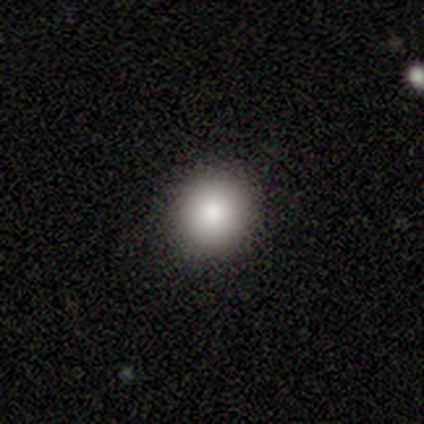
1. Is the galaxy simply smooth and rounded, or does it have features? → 100% smooth, 0% featured or disk, 0% star or artifact.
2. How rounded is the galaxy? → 100% round, 0% in between, 0% cigar-shaped.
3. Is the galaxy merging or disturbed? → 100% none, 0% minor disturbance, 0% major disturbance, 0% merger.